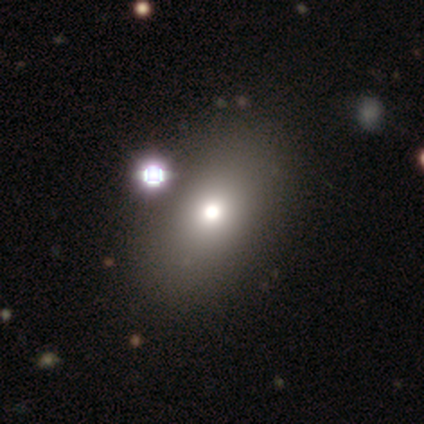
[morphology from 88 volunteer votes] Q: Smooth or featured?
A: smooth (69%); runner-up: featured or disk (16%)
Q: How rounded?
A: in between (74%); runner-up: round (25%)
Q: Merging?
A: none (75%); runner-up: minor disturbance (15%)